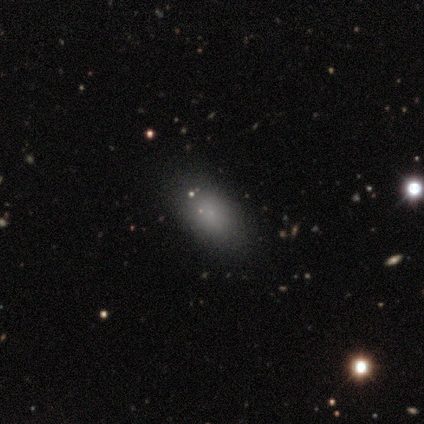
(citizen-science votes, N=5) This appears to be a smooth galaxy with no disk features (100%) that is in between round and cigar-shaped (100%). Merging: none (60%).